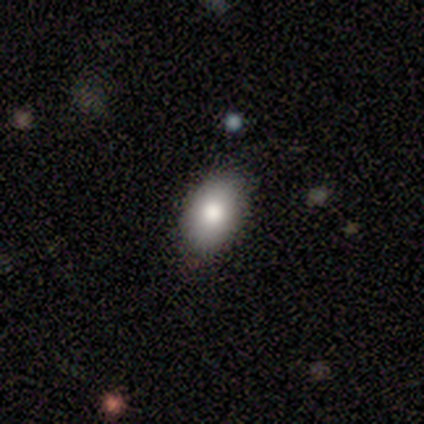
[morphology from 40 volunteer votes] Overall: smooth (75%). How rounded: in between (83%). Merging: none (92%).